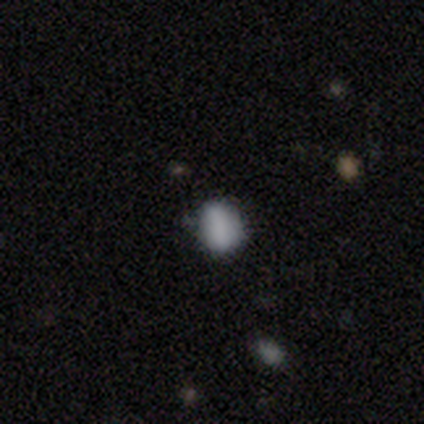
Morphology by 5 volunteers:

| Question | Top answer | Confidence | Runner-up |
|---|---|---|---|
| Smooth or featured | smooth | 80% | star or artifact (20%) |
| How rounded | round | 50% | tied: in between (50%) |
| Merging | none | 100% | — |